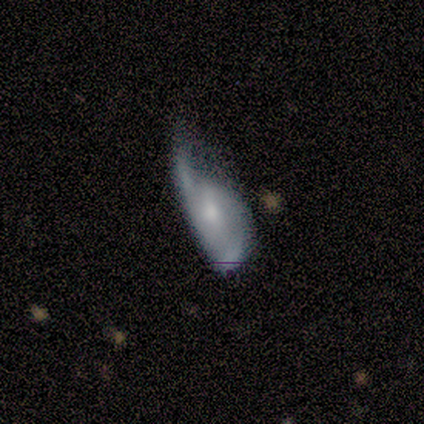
Smooth or featured? 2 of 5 (40%, tied with star or artifact) said smooth. How rounded? 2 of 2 (100%) said in between. Merging? 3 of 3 (100%) said major disturbance.